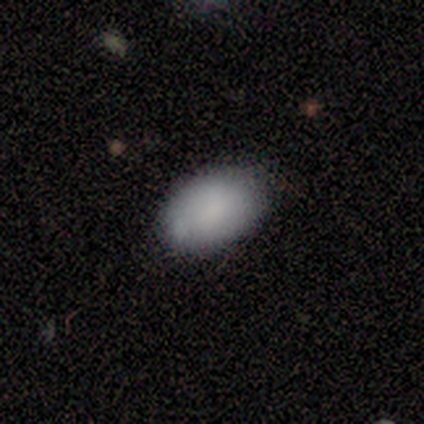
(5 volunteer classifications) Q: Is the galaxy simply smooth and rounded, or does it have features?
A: smooth — 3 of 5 (60%).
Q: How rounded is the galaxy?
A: in between — 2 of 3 (67%).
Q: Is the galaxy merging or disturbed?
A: none — 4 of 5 (80%).